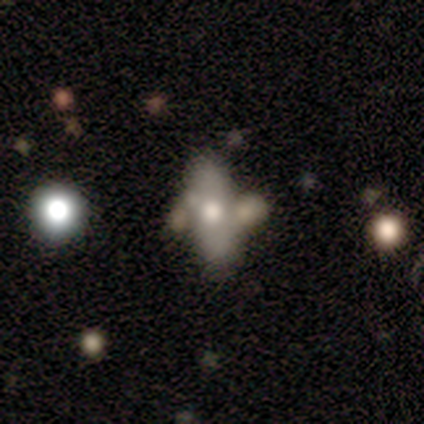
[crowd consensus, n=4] smooth-or-featured: featured or disk: 75% | smooth: 25% | star or artifact: 0%
  disk-edge-on: no: 100% | yes: 0%
    bar: no: 100% | strong: 0% | weak: 0%
    has-spiral-arms: no: 100% | yes: 0%
    bulge-size: moderate: 100% | dominant: 0% | large: 0% | small: 0% | none: 0%
  merging: merger: 50% | minor disturbance: 25% | major disturbance: 25% | none: 0%